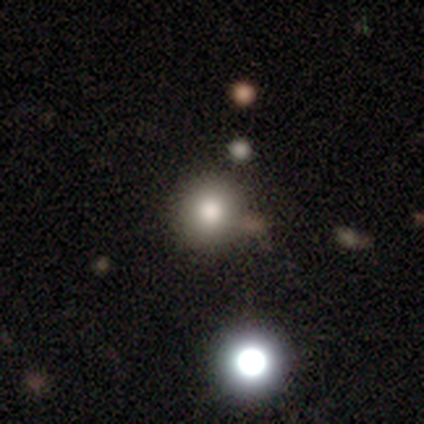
Smooth or featured?
  - smooth: 80% *
  - featured or disk: 20%
  - star or artifact: 0%
How rounded?
  - round: 100% *
  - in between: 0%
  - cigar-shaped: 0%
Merging?
  - none: 80% *
  - minor disturbance: 20%
  - major disturbance: 0%
  - merger: 0%